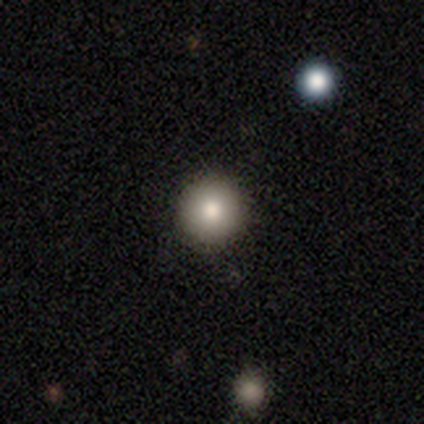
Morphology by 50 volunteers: Smooth or featured?
  - smooth: 78% *
  - featured or disk: 14%
  - star or artifact: 8%
How rounded?
  - round: 95% *
  - in between: 5%
  - cigar-shaped: 0%
Merging?
  - none: 89% *
  - minor disturbance: 11%
  - major disturbance: 0%
  - merger: 0%